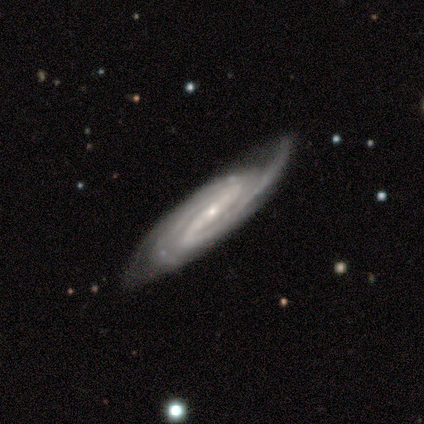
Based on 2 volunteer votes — A featured or disk galaxy (100%) viewed edge-on (50%, tied with no) with a rounded central bulge (100%). Merging: none (100%).